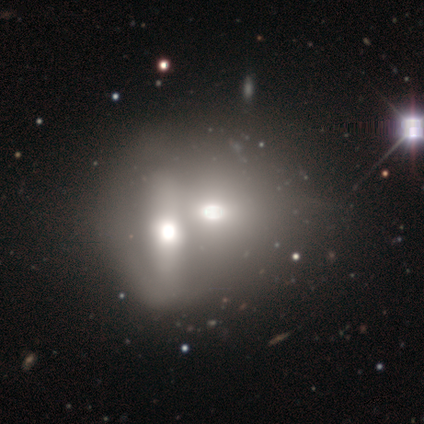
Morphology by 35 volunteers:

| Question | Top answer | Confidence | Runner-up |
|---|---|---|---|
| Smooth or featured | smooth | 66% | featured or disk (20%) |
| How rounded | in between | 57% | round (35%) |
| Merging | merger | 70% | — |